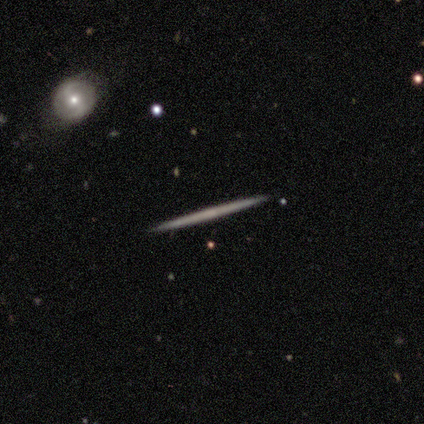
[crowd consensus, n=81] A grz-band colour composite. It shows a featured or disk galaxy (67%) viewed edge-on (100%) with no central bulge (91%). Merging: none (91%).